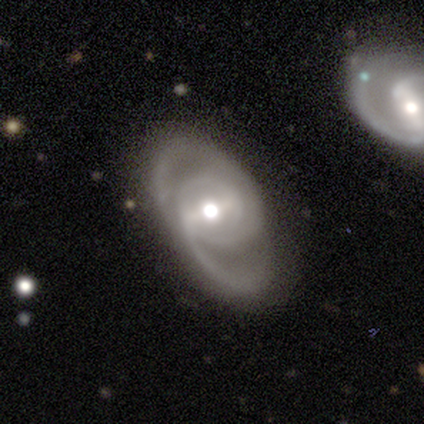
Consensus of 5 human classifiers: A featured or disk galaxy (100%) with a weak bar (75%), 2 (100%) medium (100%) spiral arms (100%) and a moderate central bulge (50%).

Vote fractions:
- Smooth or featured? featured or disk: 100% / smooth: 0% / star or artifact: 0%
- Edge-on disk? no: 80% / yes: 20%
- Bar? weak: 75% / no: 25% / strong: 0%
- Spiral arms? yes: 100% / no: 0%
- Spiral winding? medium: 100% / tight: 0% / loose: 0%
- Spiral arm count? 2: 100% / 1: 0% / 3: 0% / 4: 0% / more than 4: 0% / can't tell: 0%
- Bulge size? moderate: 50% / large: 25% / small: 25% / dominant: 0% / none: 0%
- Merging? none: 80% / minor disturbance: 20% / major disturbance: 0% / merger: 0%